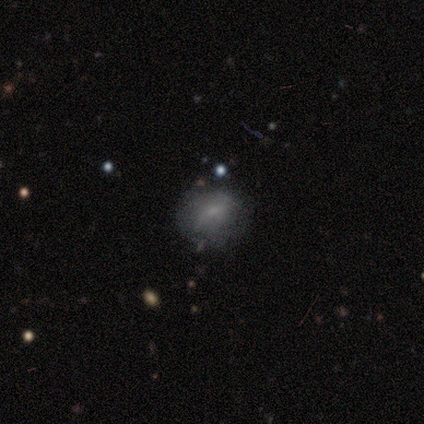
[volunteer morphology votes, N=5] Volunteers were most divided on "smooth or featured": smooth: 60%, featured or disk: 40%, star or artifact: 0%. More confident: merging — none (80%); how rounded — round (67%).